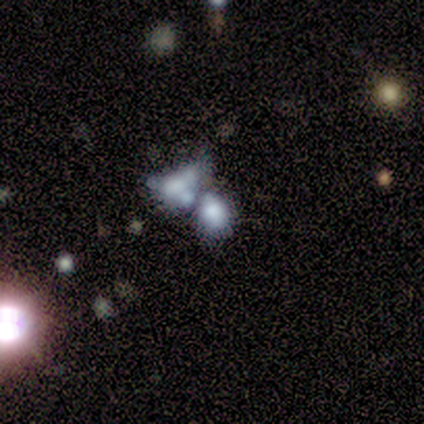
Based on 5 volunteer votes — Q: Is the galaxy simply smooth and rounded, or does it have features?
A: smooth — 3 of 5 (60%).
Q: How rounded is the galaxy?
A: in between — 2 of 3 (67%).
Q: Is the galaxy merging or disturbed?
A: merger — 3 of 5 (60%).